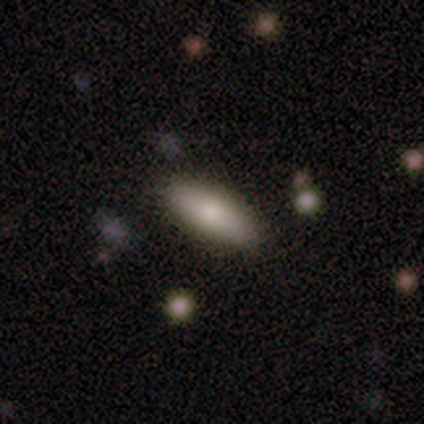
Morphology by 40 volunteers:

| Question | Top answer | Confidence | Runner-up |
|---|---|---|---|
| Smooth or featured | smooth | 85% | featured or disk (10%) |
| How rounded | in between | 74% | cigar-shaped (24%) |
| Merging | none | 95% | major disturbance (5%) |